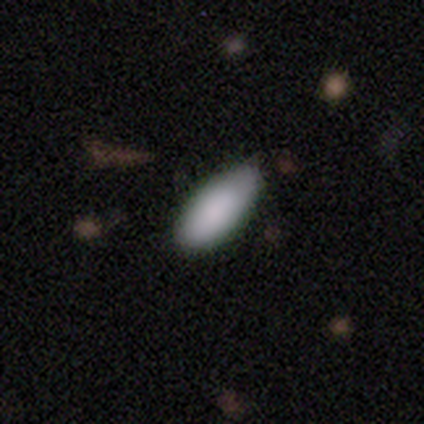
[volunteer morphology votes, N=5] smooth 100%, featured or disk 0%, star or artifact 0%. Down the decision tree: how rounded — in between (80%); merging — none (100%).